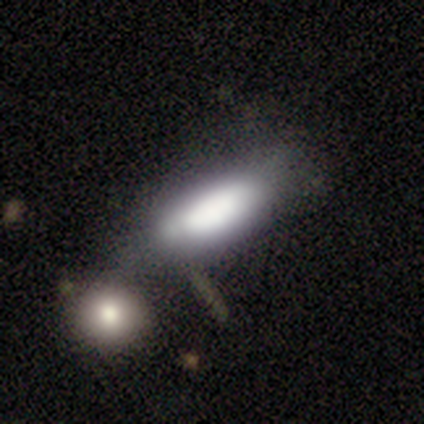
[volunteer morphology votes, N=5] This appears to be a smooth galaxy with no disk features (80%) that is in between round and cigar-shaped (100%). Merging: none (40%, tied with minor disturbance).